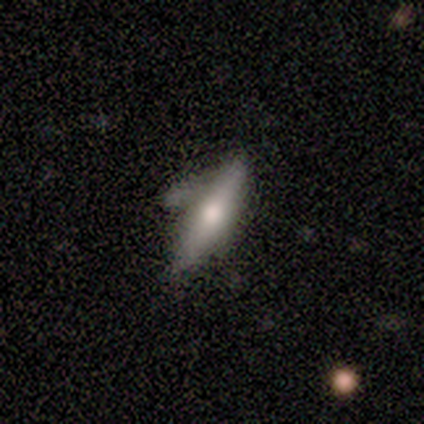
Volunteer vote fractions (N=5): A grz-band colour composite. It shows a featured or disk galaxy (60%) viewed edge-on (67%) with a rounded central bulge (100%). Merging: major disturbance (60%).